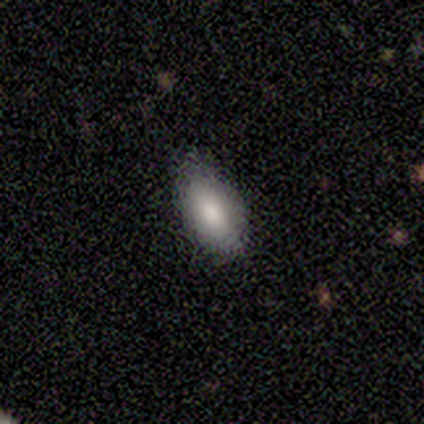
Morphology: type=smooth (100%); roundness=in between (100%); merging=none (80%).